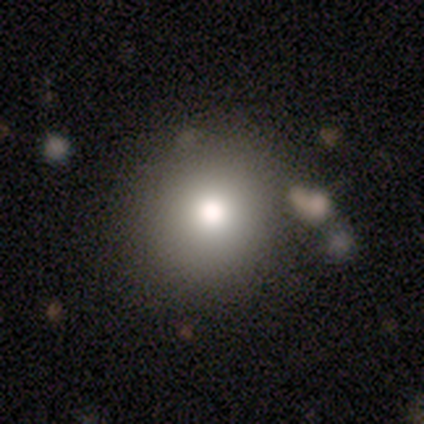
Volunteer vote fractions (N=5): Smooth or featured?
  - smooth: 100% *
  - featured or disk: 0%
  - star or artifact: 0%
How rounded?
  - round: 80% *
  - in between: 20%
  - cigar-shaped: 0%
Merging?
  - none: 60% *
  - minor disturbance: 20%
  - merger: 20%
  - major disturbance: 0%